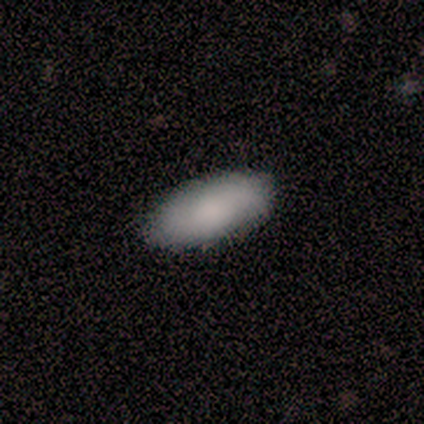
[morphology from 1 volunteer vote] A featured or disk galaxy (100%) viewed edge-on (100%) with a rounded central bulge (100%).

Vote fractions:
- Smooth or featured? featured or disk: 100% / smooth: 0% / star or artifact: 0%
- Edge-on disk? yes: 100% / no: 0%
- Edge-on bulge? rounded: 100% / boxy: 0% / none: 0%
- Merging? none: 100% / minor disturbance: 0% / major disturbance: 0% / merger: 0%